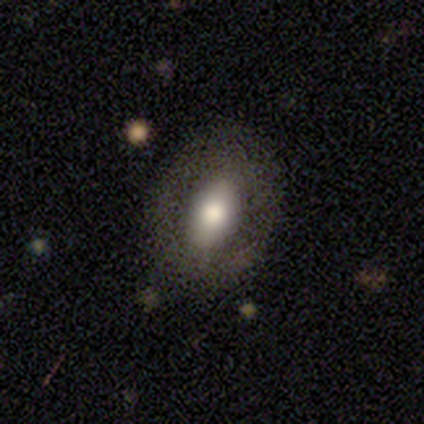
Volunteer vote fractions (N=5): Smooth or featured? smooth (60%)
How rounded? in between (100%)
Merging? none (60%)